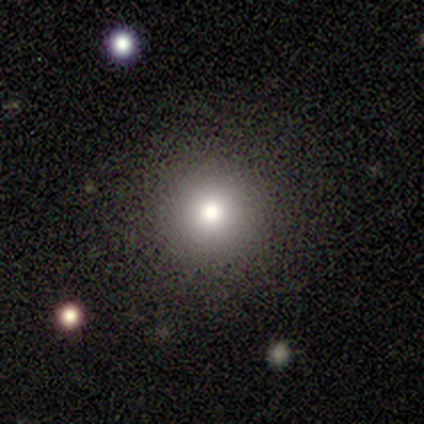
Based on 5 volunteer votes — Q: Smooth or featured?
A: smooth (100%)
Q: How rounded?
A: round (100%)
Q: Merging?
A: none (80%); runner-up: minor disturbance (20%)